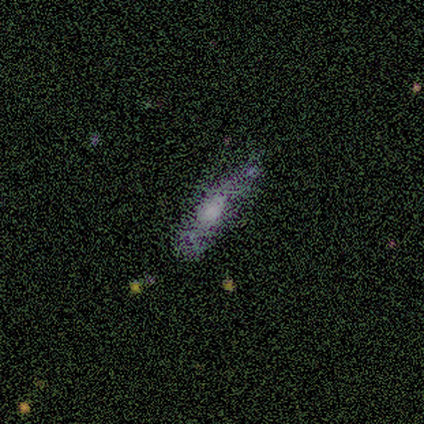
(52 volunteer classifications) featured or disk 50%, smooth 38%, star or artifact 12%. Down the decision tree: edge-on disk — yes (50%, tied with no); edge-on bulge — rounded (92%); merging — none (65%).